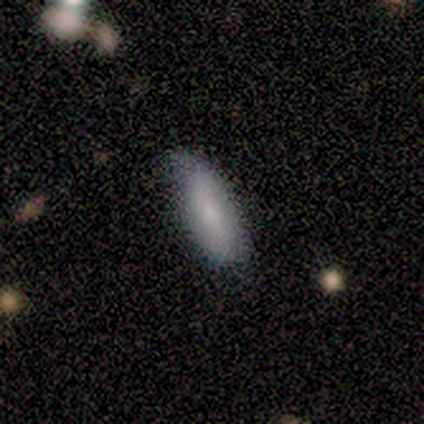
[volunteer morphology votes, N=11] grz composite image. It shows a smooth galaxy with no disk features (100%) that is in between round and cigar-shaped (55%). Merging: none (73%).